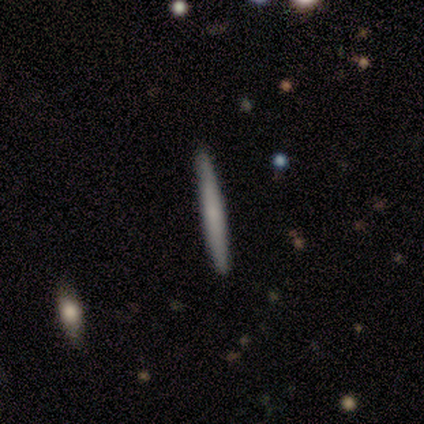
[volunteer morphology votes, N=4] Volunteers were most divided on "edge-on bulge": none: 67%, rounded: 33%, boxy: 0%. More confident: edge-on disk — yes (100%); merging — none (100%); smooth or featured — featured or disk (75%).